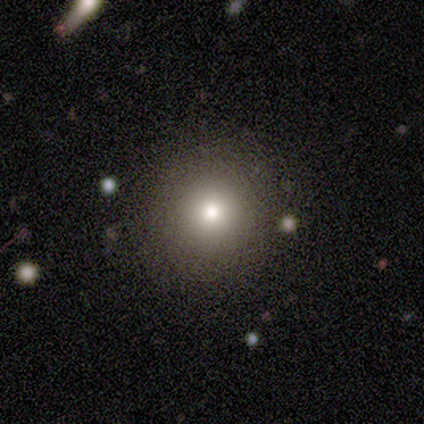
Smooth or featured? 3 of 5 (60%) said smooth. How rounded? 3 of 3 (100%) said round. Merging? 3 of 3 (100%) said none.